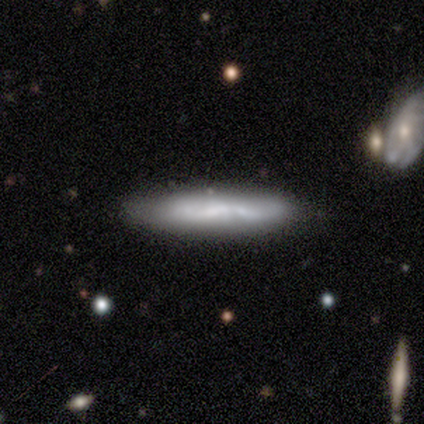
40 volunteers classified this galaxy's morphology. This is possibly a smooth galaxy (48%, tied with featured or disk). How rounded: clearly cigar-shaped (84%). Merging: clearly none (84%).